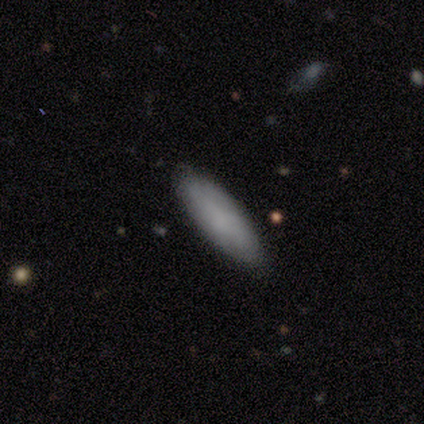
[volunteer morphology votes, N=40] Smooth or featured? 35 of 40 (88%) said smooth. How rounded? 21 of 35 (60%) said cigar-shaped. Merging? 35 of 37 (95%) said none.